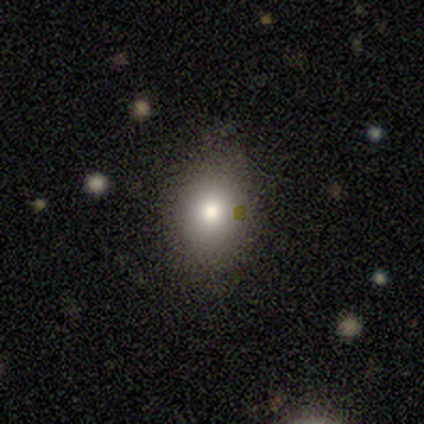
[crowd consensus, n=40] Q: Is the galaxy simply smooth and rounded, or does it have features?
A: smooth — 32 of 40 (80%).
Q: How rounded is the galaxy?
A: in between — 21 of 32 (66%).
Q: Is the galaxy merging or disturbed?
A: none — 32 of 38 (84%).